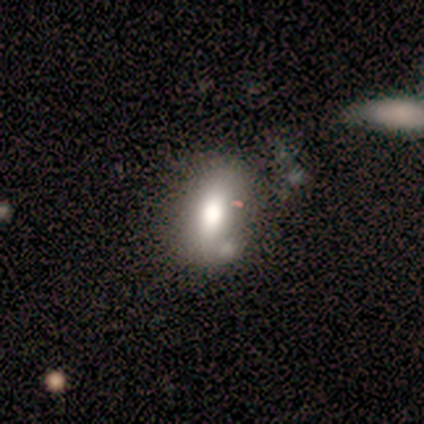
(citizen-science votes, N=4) Smooth or featured? smooth (100%)
How rounded? in between (100%)
Merging? none (50%, tied with minor disturbance)